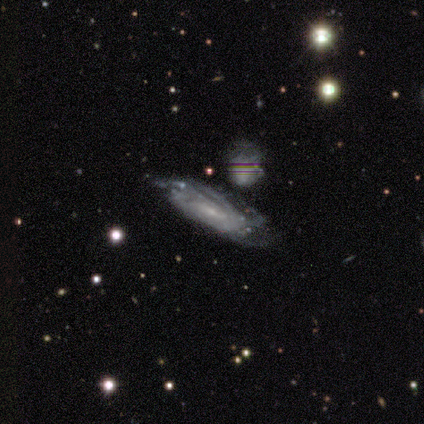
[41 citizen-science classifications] Morphology: type=featured or disk (85%); edge-on=no (86%); bar=weak (47%); spiral arms=yes (100%); winding=tight (67%); arm count=can't tell (57%); bulge=small (83%); merging=none (54%).